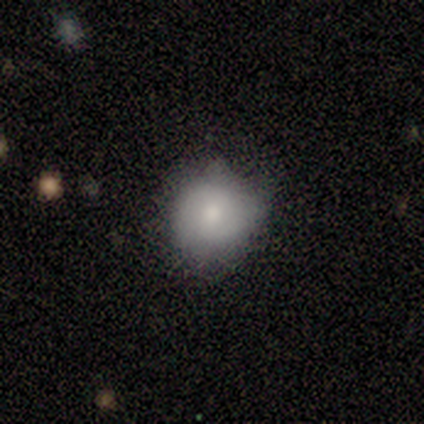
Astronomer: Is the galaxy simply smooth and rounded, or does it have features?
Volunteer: featured or disk — 60% (runner-up: smooth, 40%).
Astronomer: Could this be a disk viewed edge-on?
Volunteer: no — 100%.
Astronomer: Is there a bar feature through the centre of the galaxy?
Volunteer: strong — 67%.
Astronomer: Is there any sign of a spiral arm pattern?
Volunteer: yes — 100%.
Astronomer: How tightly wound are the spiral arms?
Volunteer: loose — 67%.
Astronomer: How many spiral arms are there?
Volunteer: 2 — 100%.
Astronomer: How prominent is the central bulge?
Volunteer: moderate — 100%.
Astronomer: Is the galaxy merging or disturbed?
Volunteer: none — 60% (runner-up: minor disturbance, 40%).